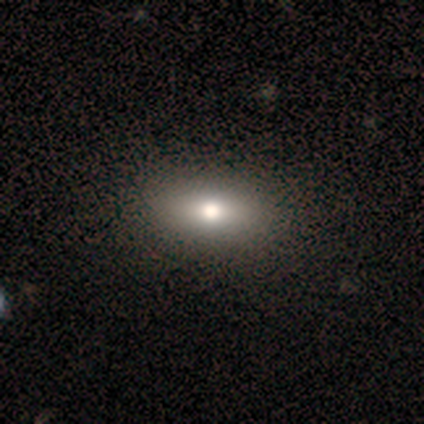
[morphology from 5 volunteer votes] smooth-or-featured: smooth: 100% | featured or disk: 0% | star or artifact: 0%
  how-rounded: in between: 40% (tied) | cigar-shaped: 40% (tied) | round: 20%
  merging: none: 100% | minor disturbance: 0% | major disturbance: 0% | merger: 0%